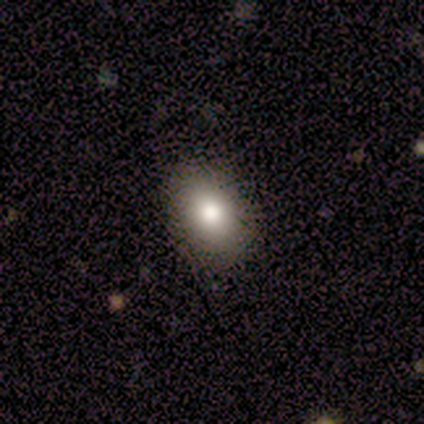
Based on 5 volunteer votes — Smooth or featured: smooth — 60% (featured or disk — 40%)
How rounded: in between — 67% (round — 33%)
Merging: none — 80% (minor disturbance — 20%)